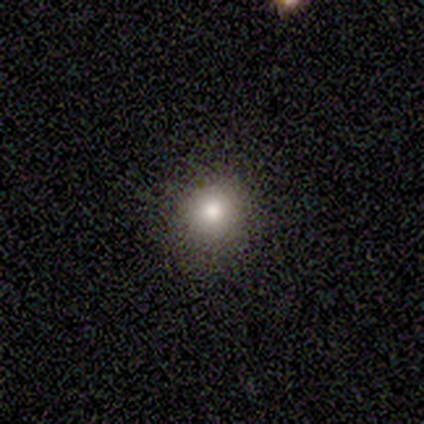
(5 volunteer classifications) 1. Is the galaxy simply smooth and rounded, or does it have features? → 80% smooth, 20% star or artifact, 0% featured or disk.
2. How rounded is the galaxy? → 75% round, 25% in between, 0% cigar-shaped.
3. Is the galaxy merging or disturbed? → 75% none, 25% minor disturbance, 0% major disturbance, 0% merger.